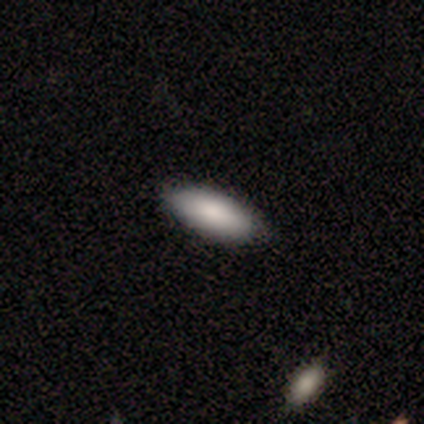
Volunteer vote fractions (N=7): Overall: smooth (86%). How rounded: in between (100%). Merging: none (83%).